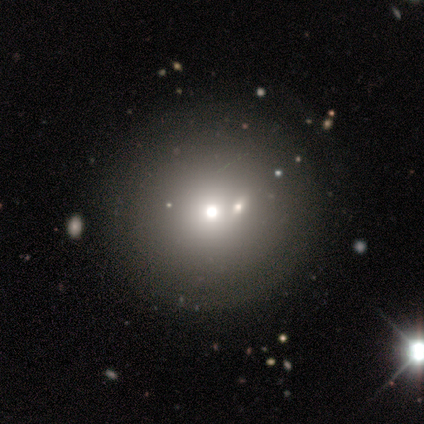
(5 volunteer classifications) smooth_or_featured: smooth (p=0.80) [alt: star or artifact p=0.20]
how_rounded: round (p=1.00)
merging: none (p=1.00)